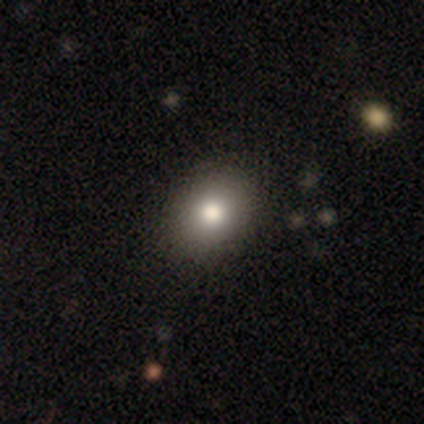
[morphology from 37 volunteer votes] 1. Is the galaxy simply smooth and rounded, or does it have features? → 89% smooth, 5% featured or disk, 5% star or artifact.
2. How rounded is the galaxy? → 64% in between, 36% round, 0% cigar-shaped.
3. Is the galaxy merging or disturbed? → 54% none, 3% minor disturbance, 3% major disturbance, 0% merger.